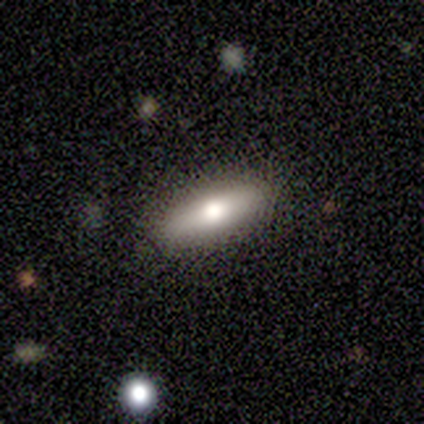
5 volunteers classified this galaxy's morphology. Volunteers were most divided on "edge-on disk": yes: 80%, no: 20%. More confident: smooth or featured — featured or disk (100%); edge-on bulge — rounded (100%); merging — none (80%).